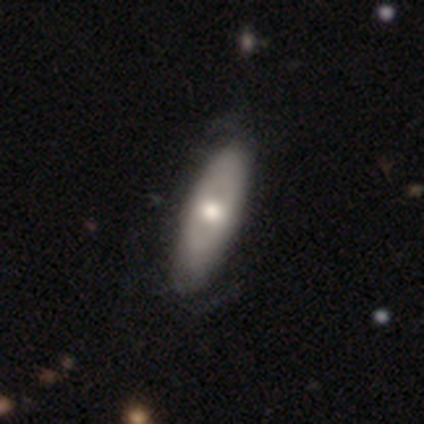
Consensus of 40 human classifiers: Smooth or featured? smooth (50%)
How rounded? in between (60%)
Merging? none (49%)